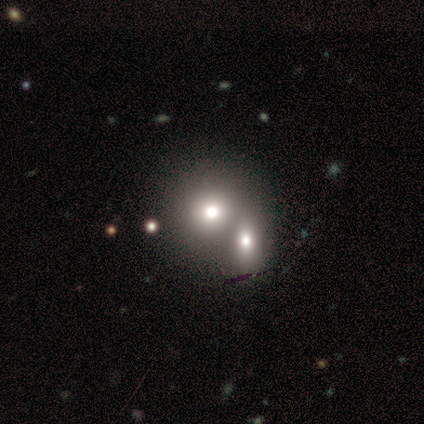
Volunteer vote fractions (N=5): Smooth or featured: smooth — 60% (star or artifact — 40%)
How rounded: round — 100%
Merging: merger — 100%